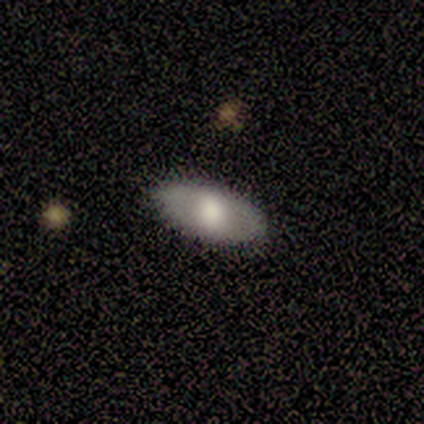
smooth_or_featured: featured or disk (p=0.60) [alt: smooth p=0.40]
disk_edge_on: no (p=0.67) [alt: yes p=0.33]
bar: weak (p=0.50) [tied with: no p=0.50]
has_spiral_arms: no (p=1.00)
bulge_size: moderate (p=1.00)
merging: none (p=1.00)